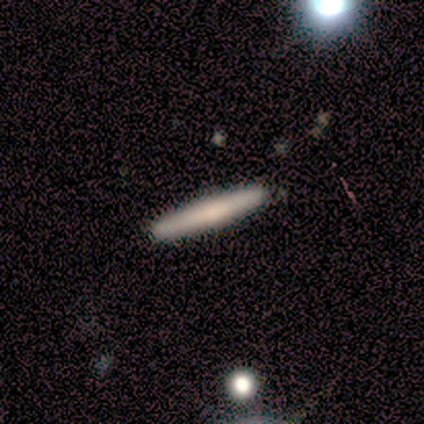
Smooth or featured? 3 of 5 (60%) said smooth. How rounded? 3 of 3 (100%) said cigar-shaped. Merging? 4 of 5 (80%) said none.